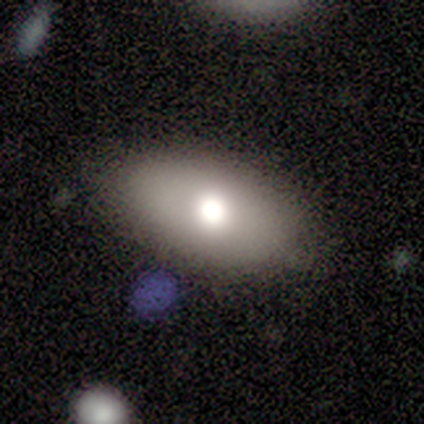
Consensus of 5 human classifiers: Morphology: type=smooth (100%); roundness=in between (100%); merging=none (60%).